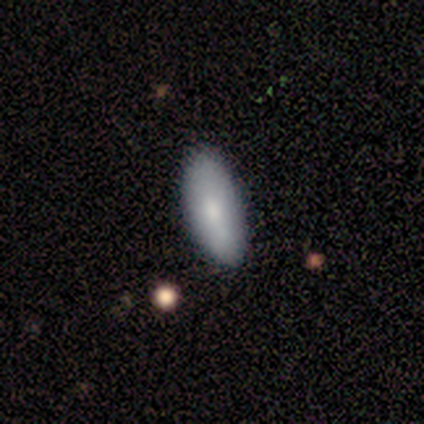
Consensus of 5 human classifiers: Volunteers were most divided on "smooth or featured": smooth: 80%, featured or disk: 20%, star or artifact: 0%. More confident: how rounded — in between (100%); merging — none (100%).